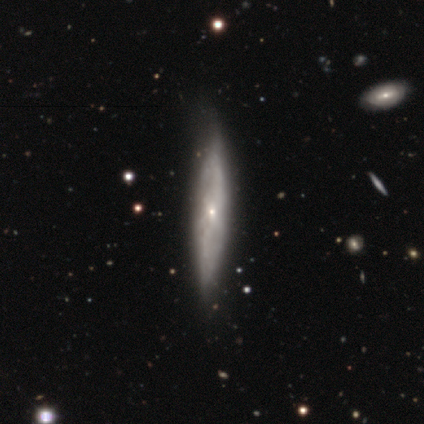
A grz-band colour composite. It shows a featured or disk galaxy (100%) viewed edge-on (60%) with no central bulge (67%). Merging: minor disturbance (60%).